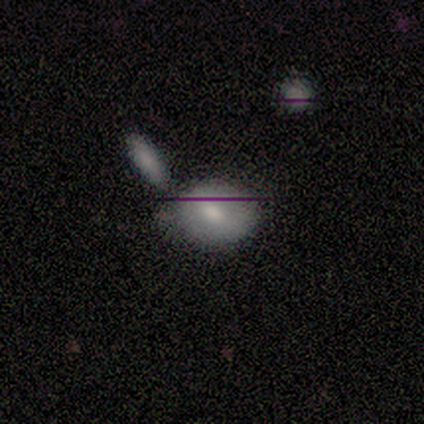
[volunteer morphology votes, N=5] smooth_or_featured: smooth (p=0.60) [alt: featured or disk p=0.40]
how_rounded: in between (p=0.67) [alt: round p=0.33]
merging: none (p=0.40) [tied with: minor disturbance p=0.40]